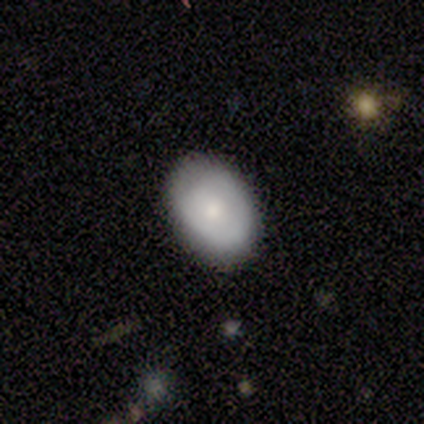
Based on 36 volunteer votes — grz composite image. It shows a smooth galaxy with no disk features (75%) that is in between round and cigar-shaped (85%). Merging: none (85%).